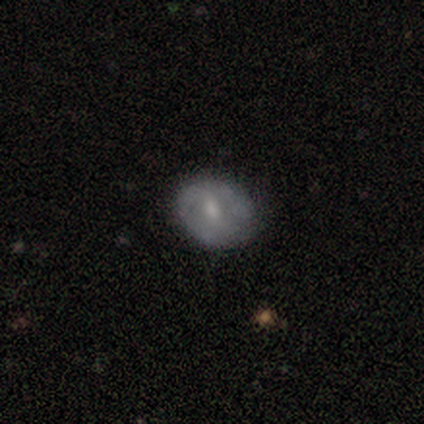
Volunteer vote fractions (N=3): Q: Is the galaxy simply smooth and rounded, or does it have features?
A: featured or disk — 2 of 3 (67%).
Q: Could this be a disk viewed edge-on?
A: no — 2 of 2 (100%).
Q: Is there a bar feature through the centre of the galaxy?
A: weak — 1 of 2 (50%, tied with no).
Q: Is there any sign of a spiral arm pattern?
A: yes — 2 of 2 (100%).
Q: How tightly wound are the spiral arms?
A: medium — 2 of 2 (100%).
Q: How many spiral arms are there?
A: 2 — 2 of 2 (100%).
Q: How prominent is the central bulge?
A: small — 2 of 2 (100%).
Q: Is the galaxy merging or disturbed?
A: none — 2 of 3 (67%).